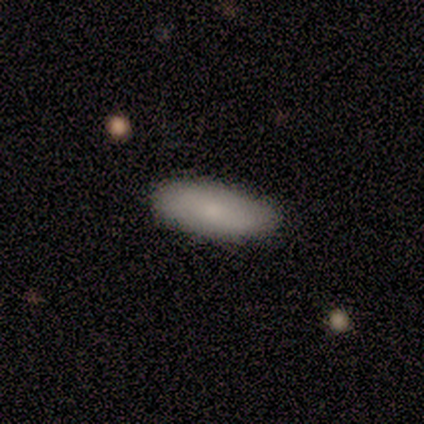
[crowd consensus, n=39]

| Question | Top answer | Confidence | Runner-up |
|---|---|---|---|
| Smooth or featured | smooth | 79% | featured or disk (18%) |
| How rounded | in between | 71% | cigar-shaped (29%) |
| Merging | none | 55% | minor disturbance (13%) |